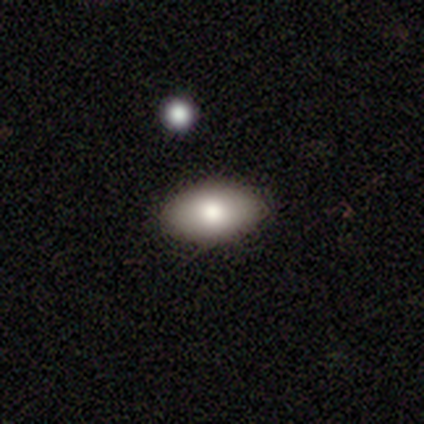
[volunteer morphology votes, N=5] Volunteers were most divided on "smooth or featured": star or artifact: 60%, smooth: 40%, featured or disk: 0%.